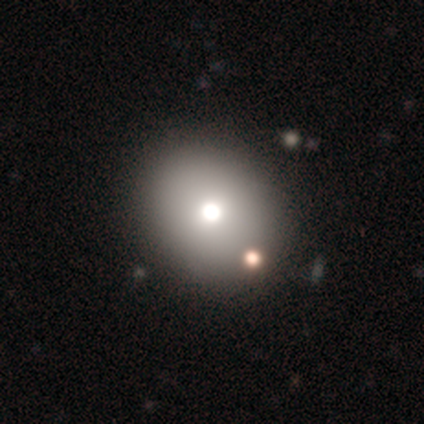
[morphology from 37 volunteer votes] A smooth galaxy with no disk features (73%) that is round (67%).

Vote fractions:
- Smooth or featured? smooth: 73% / featured or disk: 19% / star or artifact: 8%
- How rounded? round: 67% / in between: 33% / cigar-shaped: 0%
- Merging? none: 56% / minor disturbance: 6% / merger: 6% / major disturbance: 3%